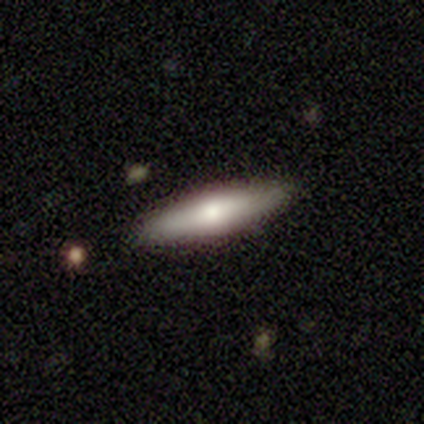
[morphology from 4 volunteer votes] type=smooth (100%); roundness=in between (50%, tied with cigar-shaped); merging=none (100%).